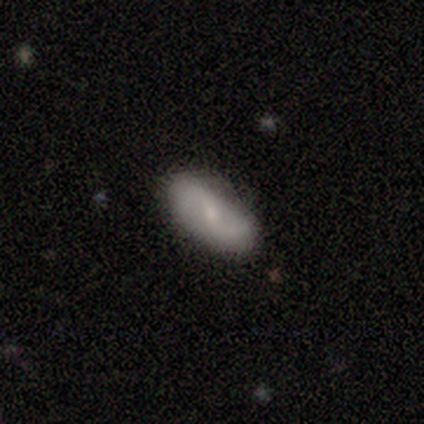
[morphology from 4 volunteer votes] Smooth or featured? 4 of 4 (100%) said smooth. How rounded? 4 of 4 (100%) said in between. Merging? 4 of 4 (100%) said none.